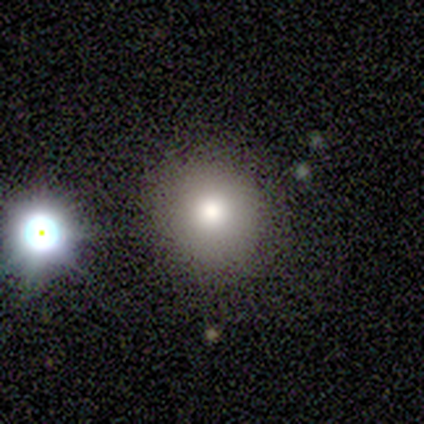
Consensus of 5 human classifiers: smooth 100%, featured or disk 0%, star or artifact 0%. Down the decision tree: how rounded — round (100%); merging — none (80%).